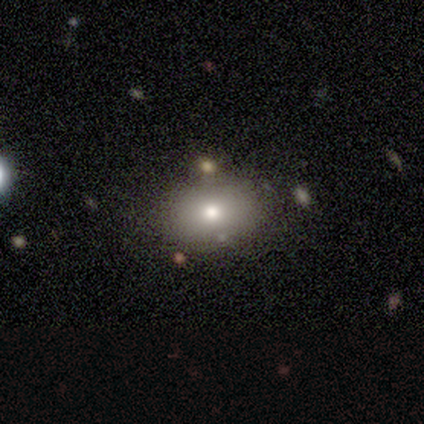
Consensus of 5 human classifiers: A featured or disk galaxy (60%) with no bar (100%), no spiral arms (100%) and a moderate central bulge (67%).

Vote fractions:
- Smooth or featured? featured or disk: 60% / smooth: 40% / star or artifact: 0%
- Edge-on disk? no: 100% / yes: 0%
- Bar? no: 100% / strong: 0% / weak: 0%
- Spiral arms? no: 100% / yes: 0%
- Bulge size? moderate: 67% / dominant: 33% / large: 0% / small: 0% / none: 0%
- Merging? none: 60% / minor disturbance: 20% / merger: 20% / major disturbance: 0%